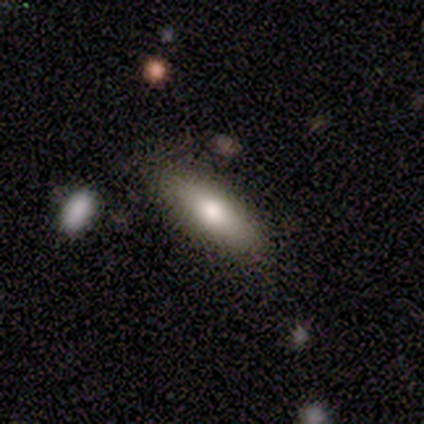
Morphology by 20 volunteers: Smooth or featured?
  - smooth: 60% *
  - featured or disk: 20%
  - star or artifact: 20%
How rounded?
  - in between: 58% *
  - cigar-shaped: 42%
  - round: 0%
Merging?
  - none: 88% *
  - minor disturbance: 12%
  - major disturbance: 0%
  - merger: 0%